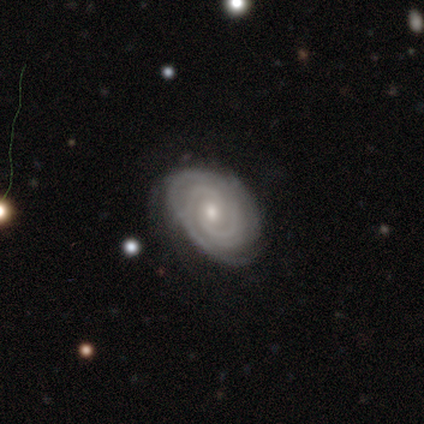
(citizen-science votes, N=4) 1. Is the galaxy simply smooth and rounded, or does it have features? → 100% featured or disk, 0% smooth, 0% star or artifact.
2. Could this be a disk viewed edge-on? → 100% no, 0% yes.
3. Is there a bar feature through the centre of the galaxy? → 100% no, 0% strong, 0% weak.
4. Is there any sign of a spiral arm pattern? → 100% yes, 0% no.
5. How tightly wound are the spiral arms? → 75% tight, 25% medium, 0% loose.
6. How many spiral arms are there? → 50% 2 (tied), 50% 3 (tied), 0% 1, 0% 4, 0% more than 4, 0% can't tell.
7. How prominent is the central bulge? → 75% moderate, 25% small, 0% dominant, 0% large, 0% none.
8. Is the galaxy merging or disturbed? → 75% none, 25% minor disturbance, 0% major disturbance, 0% merger.